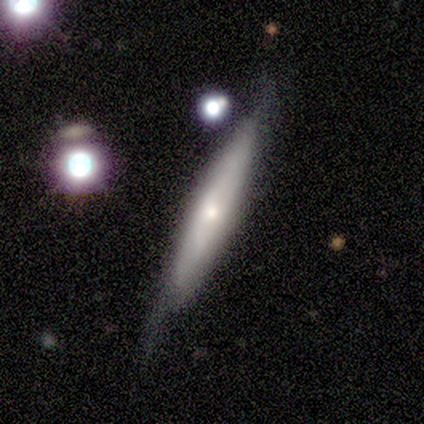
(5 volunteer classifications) This appears to be a smooth galaxy with no disk features (40%, tied with featured or disk) that is cigar-shaped (100%). Merging: none (75%).